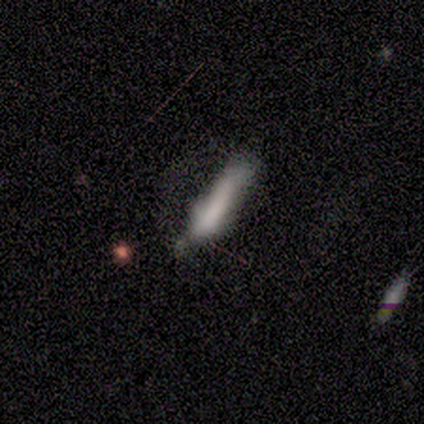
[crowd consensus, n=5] Smooth or featured? 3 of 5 (60%) said featured or disk. Edge-on disk? 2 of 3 (67%) said no. Bar? 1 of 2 (50%, tied with no) said weak. Spiral arms? 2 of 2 (100%) said no. Bulge size? 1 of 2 (50%, tied with none) said small. Merging? 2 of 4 (50%) said none.